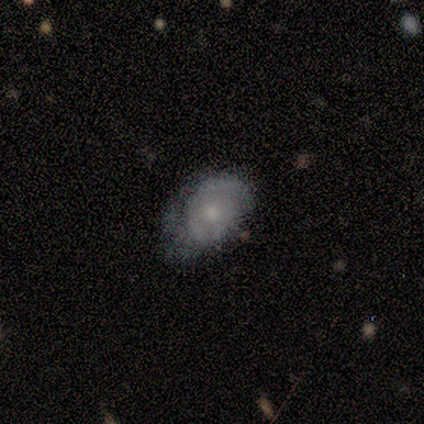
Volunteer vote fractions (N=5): This is likely a smooth galaxy (60%). How rounded: clearly in between (100%). Merging: clearly none (80%).